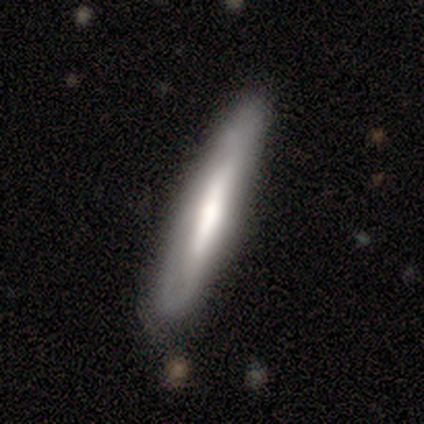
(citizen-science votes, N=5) smooth-or-featured: featured or disk: 60% | smooth: 40% | star or artifact: 0%
  disk-edge-on: yes: 67% | no: 33%
    edge-on-bulge: boxy: 50% (tied) | none: 50% (tied) | rounded: 0%
  merging: none: 80% | major disturbance: 20% | minor disturbance: 0% | merger: 0%